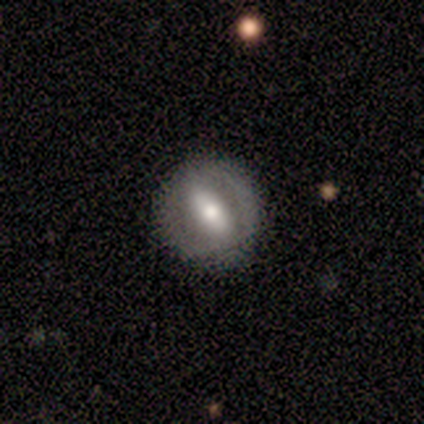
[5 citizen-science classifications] featured or disk 80%, smooth 20%, star or artifact 0%. Down the decision tree: edge-on disk — no (75%); bar — strong (67%); spiral arms — yes (67%); spiral arm count — 2 (50%, tied with can't tell); spiral winding — tight (100%); bulge size — moderate (100%); merging — minor disturbance (60%).